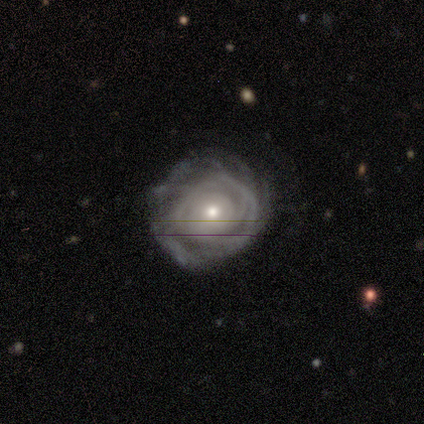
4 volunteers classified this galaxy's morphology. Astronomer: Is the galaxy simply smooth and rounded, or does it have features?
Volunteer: featured or disk — 75%.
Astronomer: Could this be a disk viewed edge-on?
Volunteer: no — 100%.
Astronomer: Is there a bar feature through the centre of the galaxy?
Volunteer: no — 67%.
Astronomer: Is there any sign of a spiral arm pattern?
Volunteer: yes — 100%.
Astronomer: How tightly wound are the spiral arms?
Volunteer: tight — 67%.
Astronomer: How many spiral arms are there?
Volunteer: can't tell — 67%.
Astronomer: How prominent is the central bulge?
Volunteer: small — 67%.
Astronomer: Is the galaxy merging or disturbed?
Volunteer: none — 100%.